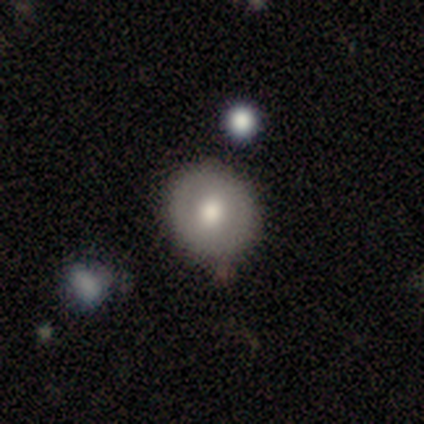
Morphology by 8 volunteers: This is likely a smooth galaxy (62%). How rounded: clearly round (100%). Merging: clearly none (88%).